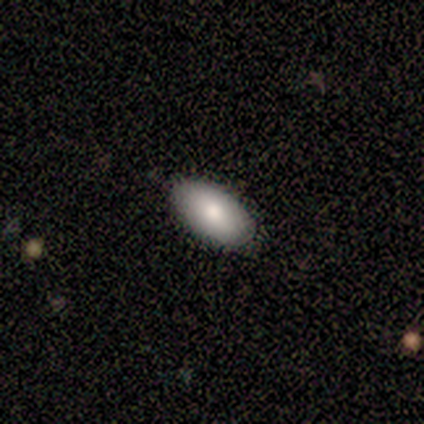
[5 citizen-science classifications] A smooth galaxy with no disk features (80%) that is in between round and cigar-shaped (100%). Merging: none (100%).